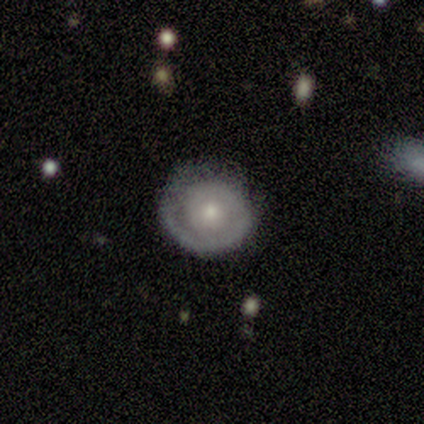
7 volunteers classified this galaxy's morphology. Smooth or featured?
  - featured or disk: 100% *
  - smooth: 0%
  - star or artifact: 0%
Edge-on disk?
  - no: 100% *
  - yes: 0%
Bar?
  - no: 100% *
  - strong: 0%
  - weak: 0%
Spiral arms?
  - yes: 71% *
  - no: 29%
Spiral winding?
  - tight: 80% *
  - medium: 20%
  - loose: 0%
Spiral arm count?
  - 1: 60% *
  - 3: 20%
  - can't tell: 20%
  - 2: 0%
  - 4: 0%
  - more than 4: 0%
Bulge size?
  - moderate: 57% *
  - small: 29%
  - none: 14%
  - dominant: 0%
  - large: 0%
Merging?
  - none: 86% *
  - minor disturbance: 14%
  - major disturbance: 0%
  - merger: 0%